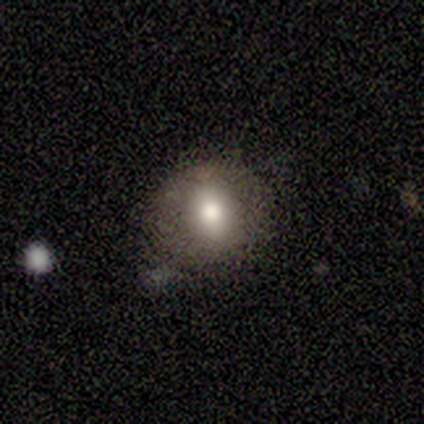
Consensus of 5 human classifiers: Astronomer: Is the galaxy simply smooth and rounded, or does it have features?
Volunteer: smooth — 80%.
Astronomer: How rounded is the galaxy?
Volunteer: round — 100%.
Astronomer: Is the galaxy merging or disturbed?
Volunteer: minor disturbance — 60% (runner-up: none, 40%).